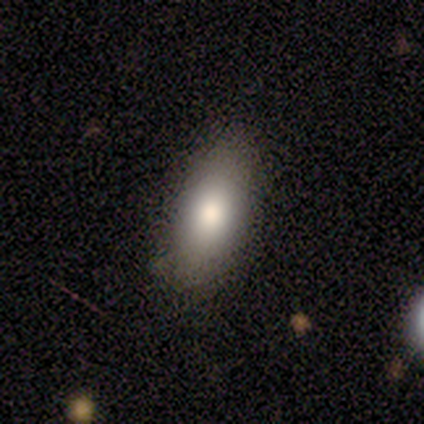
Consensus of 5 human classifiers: smooth 80%, featured or disk 20%, star or artifact 0%. Down the decision tree: how rounded — in between (100%); merging — none (100%).